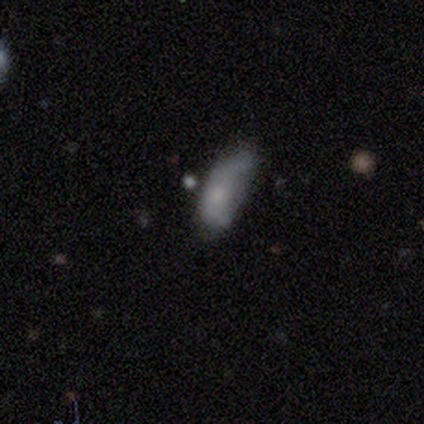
This is likely a featured or disk galaxy (60%). It is clearly not viewed edge-on (100%). Bar: clearly no (100%). Spiral arm pattern: likely yes (67%). Spiral arm count: possibly 1 (50%, tied with 2). Spiral winding: possibly medium (50%, tied with loose). Central bulge: likely small (67%). Merging: likely minor disturbance (60%).